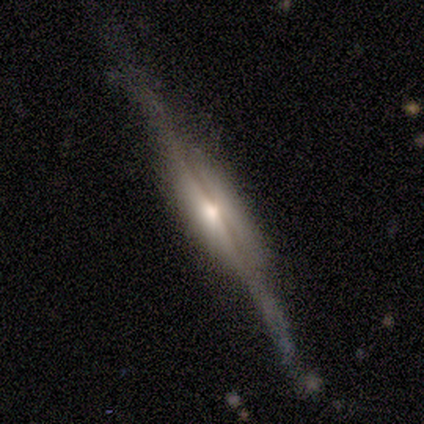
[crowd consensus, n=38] smooth-or-featured: featured or disk: 89% | smooth: 8% | star or artifact: 3%
  disk-edge-on: yes: 97% | no: 3%
    edge-on-bulge: rounded: 55% | boxy: 36% | none: 9%
  merging: none: 76% | minor disturbance: 14% | major disturbance: 11% | merger: 0%